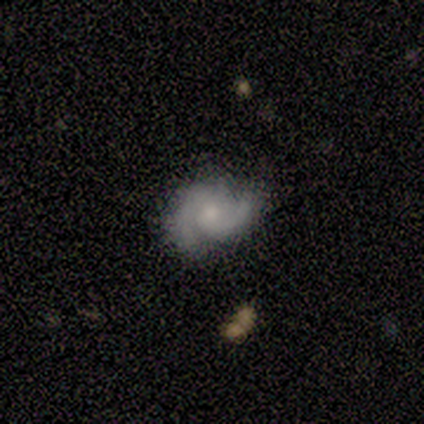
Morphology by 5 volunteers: Overall: featured or disk (100%). Edge-on disk: no (100%). Bar: no (80%). Spiral arms: yes (100%). Spiral arm count: 2 (100%). Spiral winding: medium (60%; tight 40%). Bulge size: moderate (60%; small 40%). Merging: none (80%).